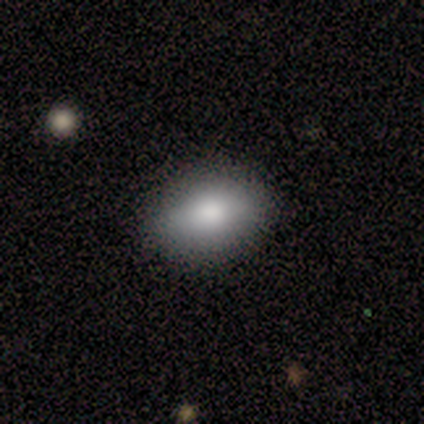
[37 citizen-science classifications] A smooth galaxy with no disk features (70%) that is in between round and cigar-shaped (81%).

Vote fractions:
- Smooth or featured? smooth: 70% / star or artifact: 16% / featured or disk: 14%
- How rounded? in between: 81% / round: 19% / cigar-shaped: 0%
- Merging? none: 74% / minor disturbance: 19% / merger: 6% / major disturbance: 0%